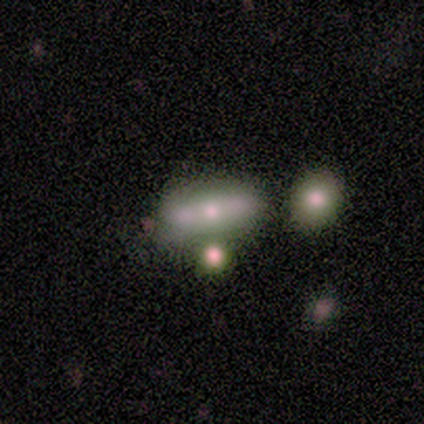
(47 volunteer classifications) Volunteers were most divided on "smooth or featured": featured or disk: 47%, smooth: 43%, star or artifact: 11%. More confident: edge-on bulge — rounded (92%); edge-on disk — yes (55%); merging — none (52%).